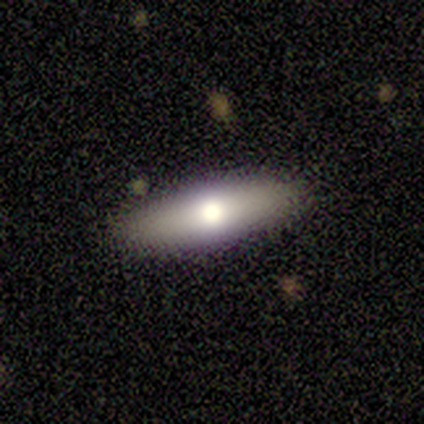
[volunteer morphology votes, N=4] Overall: star or artifact (50%; smooth 25%).